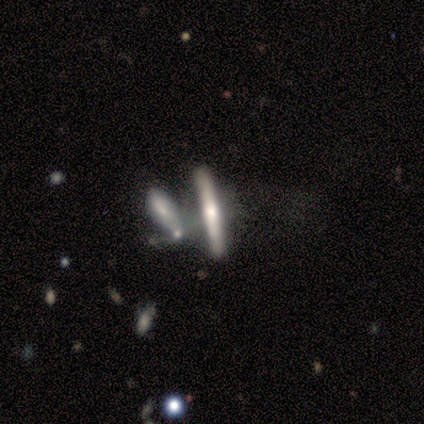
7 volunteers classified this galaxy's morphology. smooth_or_featured: featured or disk (p=0.57) [alt: smooth p=0.43]
disk_edge_on: yes (p=1.00)
edge_on_bulge: rounded (p=0.75) [alt: none p=0.25]
merging: merger (p=0.57) [alt: major disturbance p=0.29]